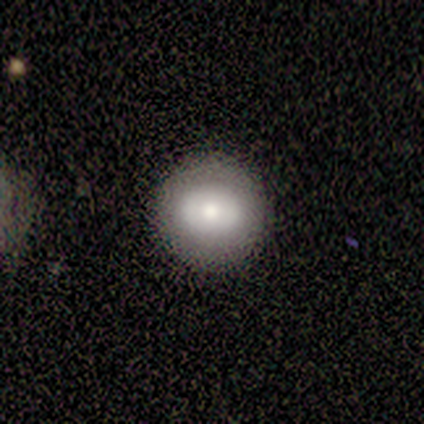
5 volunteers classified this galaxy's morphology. This is likely a featured or disk galaxy (60%). It is likely not viewed edge-on (67%). Bar: clearly no (100%). Spiral arm pattern: clearly no (100%). Central bulge: clearly moderate (100%). Merging: clearly none (100%).